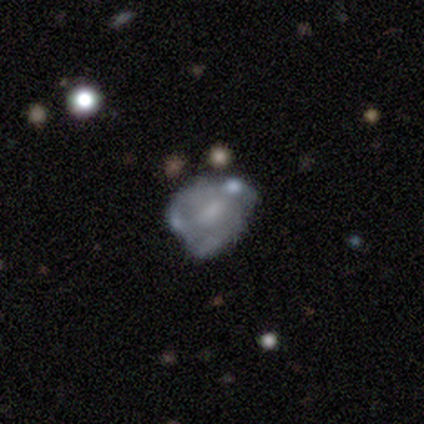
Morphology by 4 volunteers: This is possibly a smooth galaxy (50%). How rounded: possibly in between (50%, tied with cigar-shaped). Merging: marginally minor disturbance (33%, tied with major disturbance and merger).